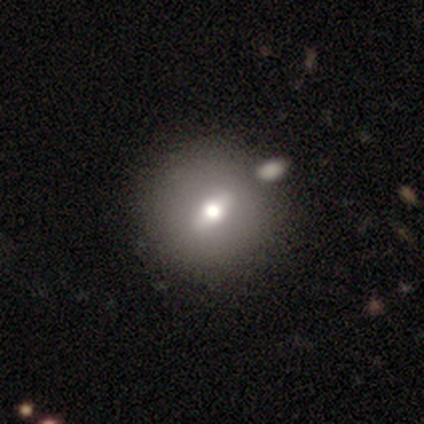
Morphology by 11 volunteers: Overall: smooth (55%; featured or disk 36%). How rounded: round (83%). Merging: none (80%).